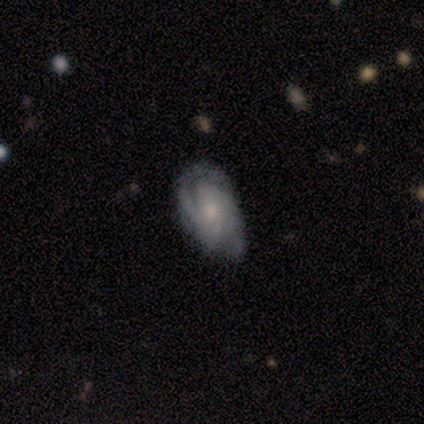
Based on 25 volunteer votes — This appears to be a featured or disk galaxy (80%) with no bar (53%), 2 (68%) tight (63%) spiral arms (100%) and a small central bulge (63%). Merging: none (48%).